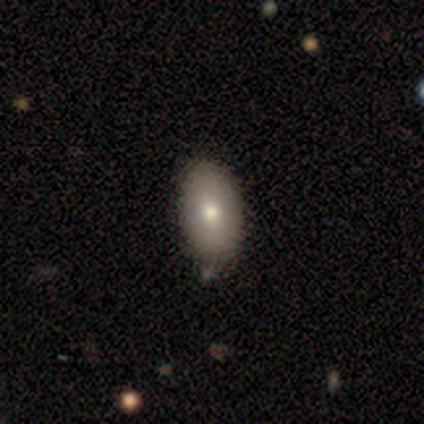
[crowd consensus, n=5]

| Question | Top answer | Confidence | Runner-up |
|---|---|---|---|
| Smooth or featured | smooth | 100% | — |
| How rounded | in between | 100% | — |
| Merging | none | 100% | — |